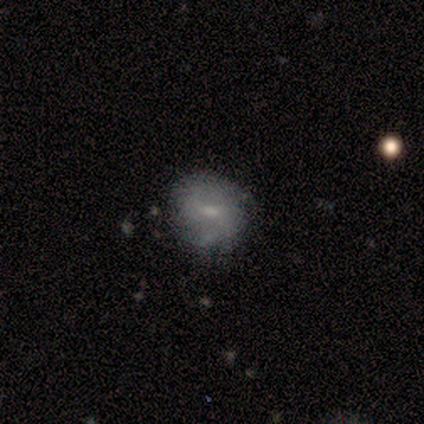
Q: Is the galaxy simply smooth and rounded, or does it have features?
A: featured or disk — 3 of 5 (60%).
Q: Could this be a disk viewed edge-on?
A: no — 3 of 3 (100%).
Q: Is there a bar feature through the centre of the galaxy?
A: weak — 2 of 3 (67%).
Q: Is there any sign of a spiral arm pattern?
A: yes — 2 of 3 (67%).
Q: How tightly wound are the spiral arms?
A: medium — 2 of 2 (100%).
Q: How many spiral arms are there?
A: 2 — 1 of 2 (50%, tied with can't tell).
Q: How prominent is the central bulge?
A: large — 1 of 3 (33%, tied with moderate and small).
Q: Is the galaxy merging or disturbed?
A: none — 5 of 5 (100%).